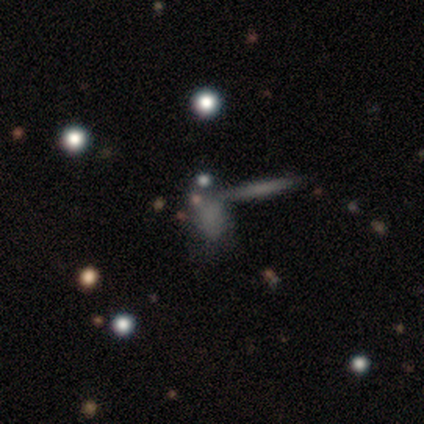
smooth_or_featured: smooth (p=0.54) [alt: featured or disk p=0.28]
how_rounded: in between (p=0.76) [alt: cigar-shaped p=0.14]
merging: merger (p=0.56) [alt: none p=0.38]